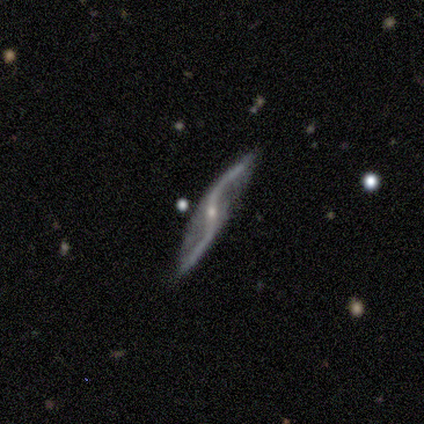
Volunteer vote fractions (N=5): Overall: featured or disk (100%). Edge-on disk: no (80%). Bar: no (75%). Spiral arms: yes (100%). Spiral arm count: 2 (100%). Spiral winding: loose (100%). Bulge size: small (100%). Merging: none (80%).